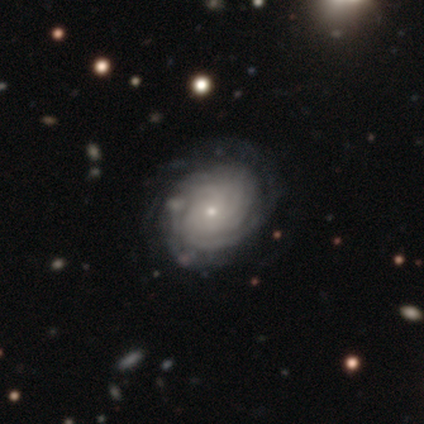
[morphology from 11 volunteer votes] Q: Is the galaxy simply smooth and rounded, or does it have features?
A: featured or disk — 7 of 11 (64%).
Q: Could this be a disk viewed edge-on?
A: no — 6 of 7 (86%).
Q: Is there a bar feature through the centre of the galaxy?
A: no — 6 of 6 (100%).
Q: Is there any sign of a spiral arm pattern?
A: yes — 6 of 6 (100%).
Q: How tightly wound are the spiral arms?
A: tight — 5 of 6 (83%).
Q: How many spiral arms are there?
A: can't tell — 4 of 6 (67%).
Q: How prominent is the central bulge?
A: small — 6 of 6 (100%).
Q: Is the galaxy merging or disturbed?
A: none — 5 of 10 (50%).